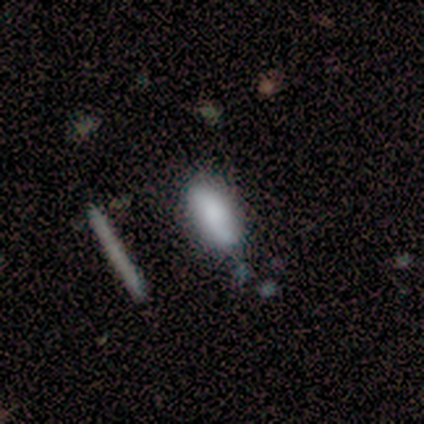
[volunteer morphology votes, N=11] smooth_or_featured: smooth (p=0.73) [alt: featured or disk p=0.18]
how_rounded: in between (p=0.62) [alt: cigar-shaped p=0.38]
merging: none (p=0.80) [alt: minor disturbance p=0.10]